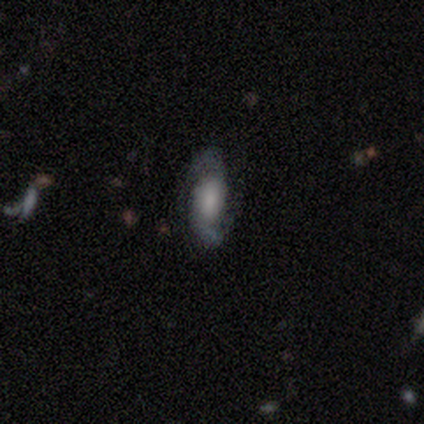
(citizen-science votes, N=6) This appears to be a featured or disk galaxy (50%) with a weak bar (67%), 2 (100%) loose (67%) spiral arms (100%) and a small central bulge (67%). Merging: none (60%).